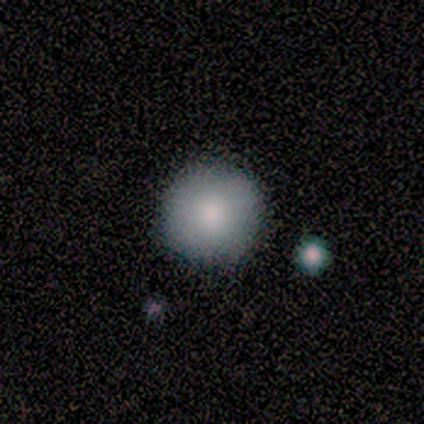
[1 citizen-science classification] Q: Smooth or featured?
A: smooth (100%)
Q: How rounded?
A: round (100%)
Q: Merging?
A: none (100%)